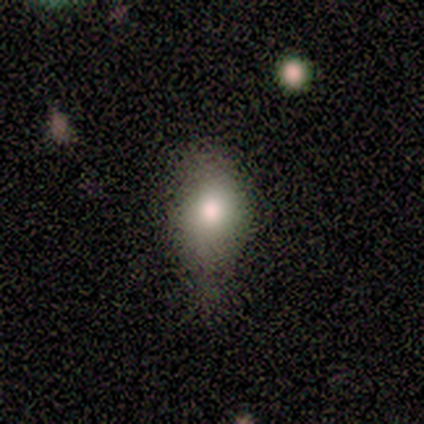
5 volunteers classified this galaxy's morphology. Smooth or featured: smooth — 80% (featured or disk — 20%)
How rounded: in between — 75% (round — 25%)
Merging: minor disturbance — 80% (none — 20%)